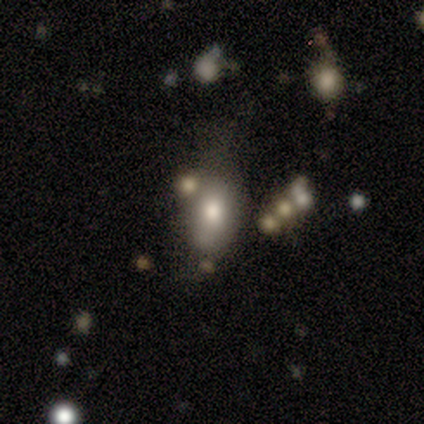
This appears to be a smooth galaxy with no disk features (80%) that is in between round and cigar-shaped (75%). Merging: minor disturbance (60%).